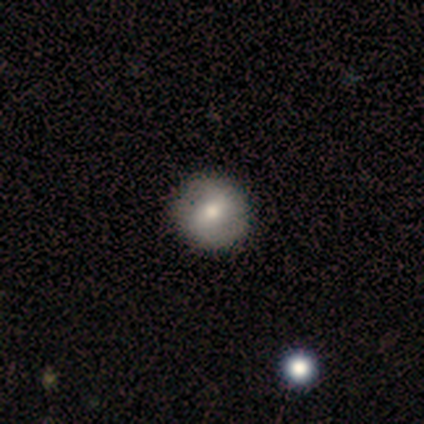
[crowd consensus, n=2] This is clearly a smooth galaxy (100%). How rounded: clearly round (100%). Merging: clearly none (100%).